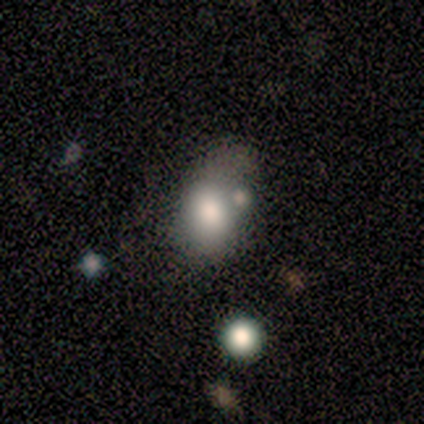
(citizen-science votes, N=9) Q: Smooth or featured?
A: smooth (56%); runner-up: featured or disk (33%)
Q: How rounded?
A: in between (60%); runner-up: round (40%)
Q: Merging?
A: minor disturbance (50%); runner-up: merger (25%)